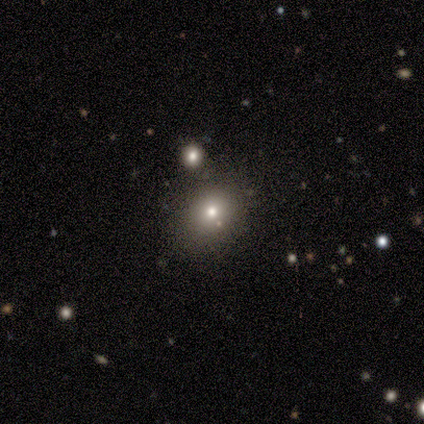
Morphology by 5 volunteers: Smooth or featured? star or artifact (60%)